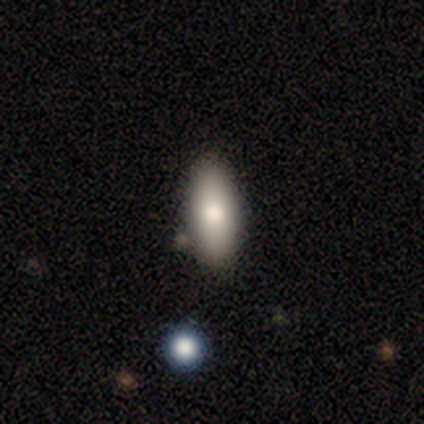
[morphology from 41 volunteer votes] Overall: smooth (83%). How rounded: in between (79%). Merging: none (84%).